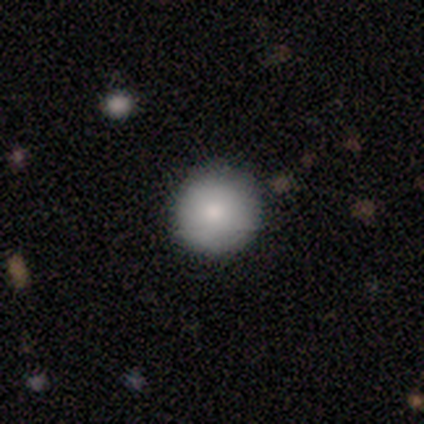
smooth 100%, featured or disk 0%, star or artifact 0%. Down the decision tree: how rounded — round (92%); merging — none (85%).